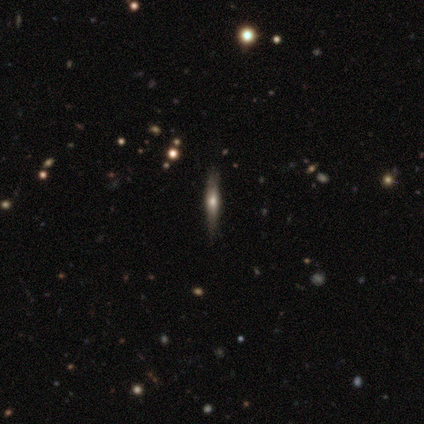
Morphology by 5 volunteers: Smooth or featured? smooth (80%)
How rounded? cigar-shaped (100%)
Merging? none (80%)